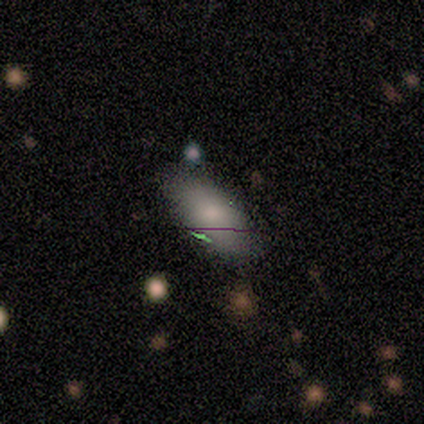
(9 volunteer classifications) Overall: smooth (89%). How rounded: in between (88%). Merging: none (89%).